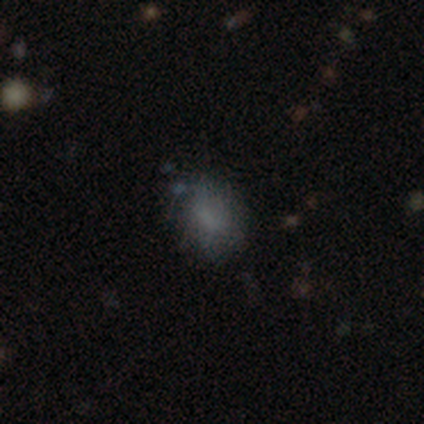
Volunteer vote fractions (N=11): Morphology: type=smooth (64%); roundness=round (57%); merging=none (82%).